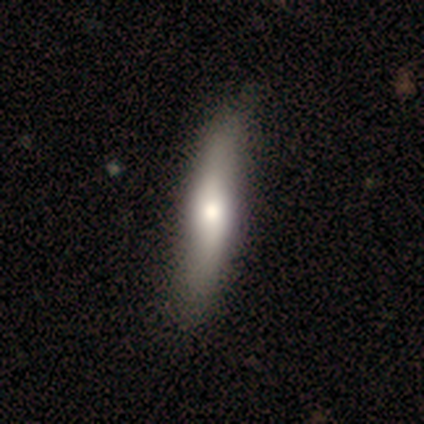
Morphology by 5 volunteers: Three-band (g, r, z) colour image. It shows a smooth galaxy with no disk features (60%) that is cigar-shaped (100%). Merging: none (60%).